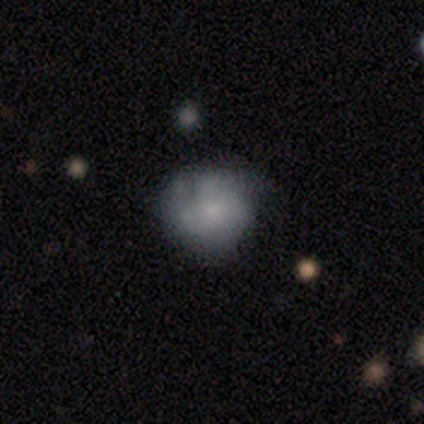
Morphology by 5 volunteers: This appears to be a smooth galaxy with no disk features (60%) that is round (67%). Merging: none (60%).